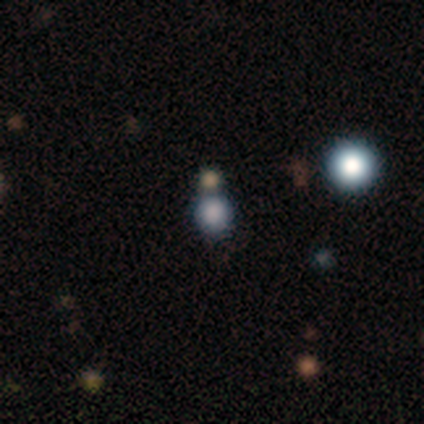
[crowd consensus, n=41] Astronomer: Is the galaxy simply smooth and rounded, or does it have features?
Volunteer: smooth — 59% (runner-up: star or artifact, 34%).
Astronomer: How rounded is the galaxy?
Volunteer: round — 100%.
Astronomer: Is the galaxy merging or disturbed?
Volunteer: none — 81%.